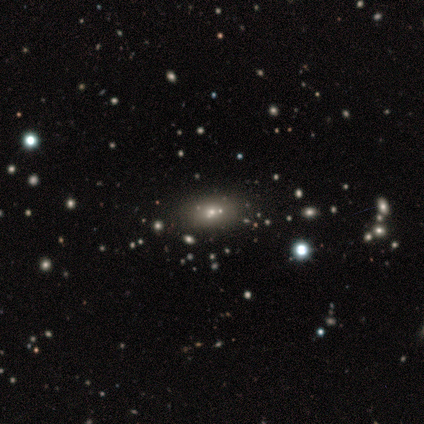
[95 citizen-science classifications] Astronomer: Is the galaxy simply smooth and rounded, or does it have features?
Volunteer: smooth — 60%.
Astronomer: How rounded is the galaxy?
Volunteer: in between — 84%.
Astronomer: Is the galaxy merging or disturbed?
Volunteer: none — 78%.